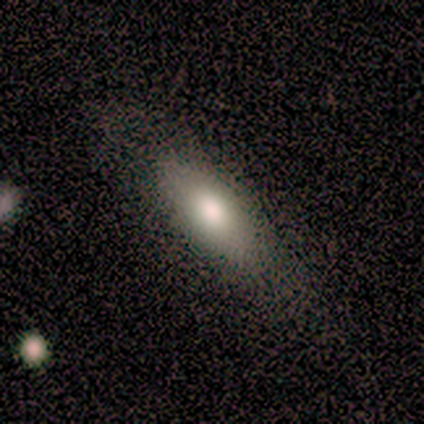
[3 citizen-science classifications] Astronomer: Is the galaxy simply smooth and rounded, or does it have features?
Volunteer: smooth — 100%.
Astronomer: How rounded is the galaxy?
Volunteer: in between — 100%.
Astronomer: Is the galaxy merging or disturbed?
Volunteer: none — 100%.